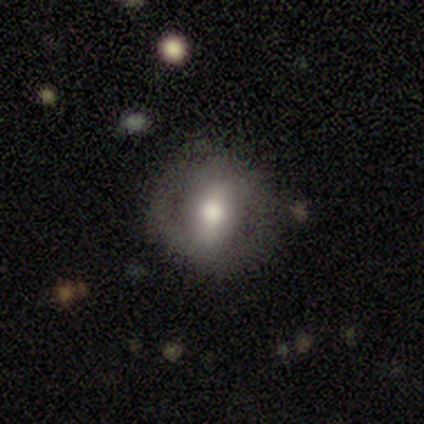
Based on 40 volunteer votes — Smooth or featured? 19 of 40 (48%, tied with featured or disk) said smooth. How rounded? 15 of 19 (79%) said round. Merging? 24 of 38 (63%) said none.